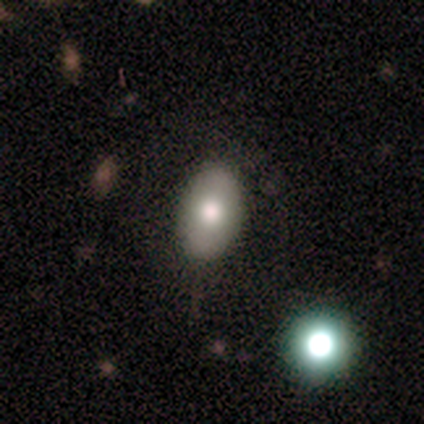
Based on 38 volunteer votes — Smooth or featured?
  - smooth: 74% *
  - featured or disk: 26%
  - star or artifact: 0%
How rounded?
  - in between: 79% *
  - round: 21%
  - cigar-shaped: 0%
Merging?
  - none: 47% *
  - minor disturbance: 13%
  - merger: 5%
  - major disturbance: 0%